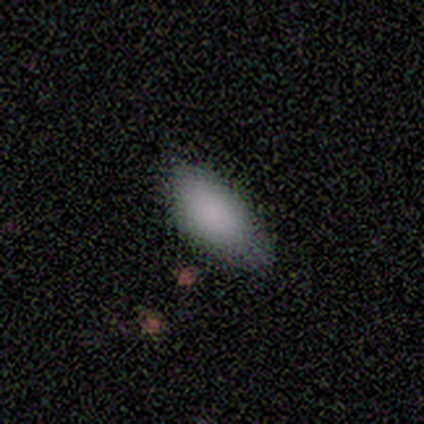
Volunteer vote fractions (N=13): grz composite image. It shows a smooth galaxy with no disk features (92%) that is in between round and cigar-shaped (100%). Merging: none (46%).